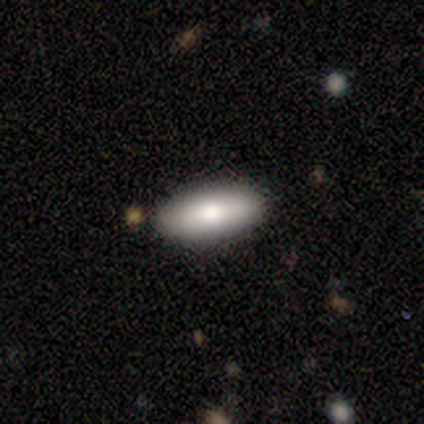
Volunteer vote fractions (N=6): Q: Smooth or featured?
A: smooth (83%); runner-up: featured or disk (17%)
Q: How rounded?
A: in between (80%); runner-up: cigar-shaped (20%)
Q: Merging?
A: none (83%); runner-up: major disturbance (17%)